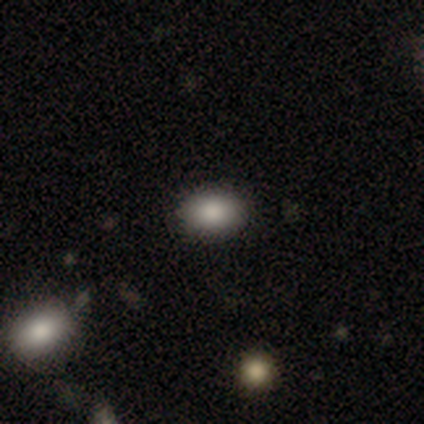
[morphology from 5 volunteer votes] Q: Smooth or featured?
A: smooth (100%)
Q: How rounded?
A: in between (100%)
Q: Merging?
A: none (80%); runner-up: major disturbance (20%)